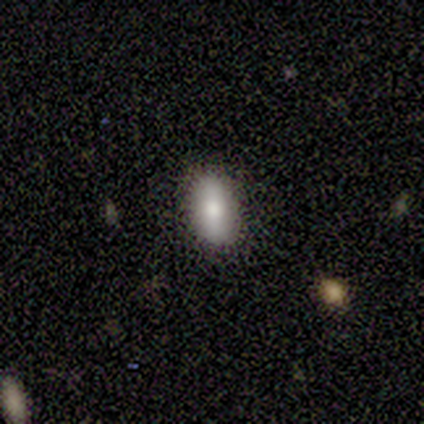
smooth-or-featured: smooth: 60% | featured or disk: 40% | star or artifact: 0%
  how-rounded: in between: 100% | round: 0% | cigar-shaped: 0%
  merging: none: 100% | minor disturbance: 0% | major disturbance: 0% | merger: 0%